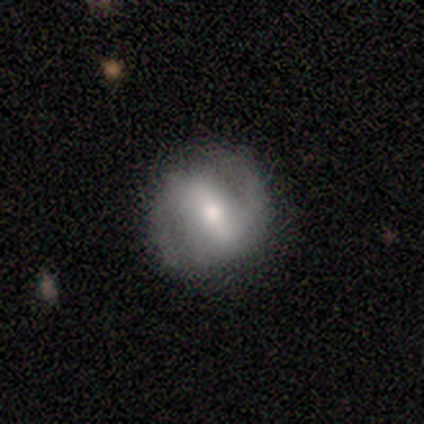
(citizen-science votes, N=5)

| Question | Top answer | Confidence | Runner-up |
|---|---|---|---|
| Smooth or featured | featured or disk | 80% | smooth (20%) |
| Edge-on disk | no | 100% | — |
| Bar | strong | 50% | weak (25%) |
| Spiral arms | yes | 75% | no (25%) |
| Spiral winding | medium | 67% | loose (33%) |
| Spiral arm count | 2 | 100% | — |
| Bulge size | small | 50% | large (25%) |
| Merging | none | 60% | minor disturbance (40%) |